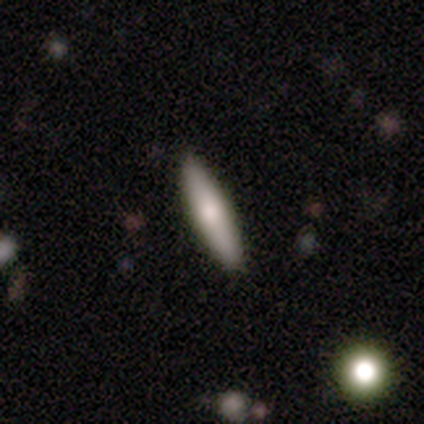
Volunteers were most divided on "smooth or featured": smooth: 68%, featured or disk: 24%, star or artifact: 8%. More confident: merging — none (89%); how rounded — cigar-shaped (88%).